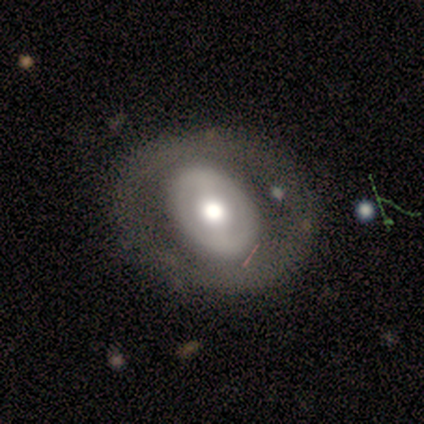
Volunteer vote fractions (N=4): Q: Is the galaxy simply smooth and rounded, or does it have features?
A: smooth — 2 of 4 (50%, tied with featured or disk).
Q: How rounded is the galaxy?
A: round — 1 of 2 (50%, tied with in between).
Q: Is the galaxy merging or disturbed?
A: none — 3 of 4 (75%).